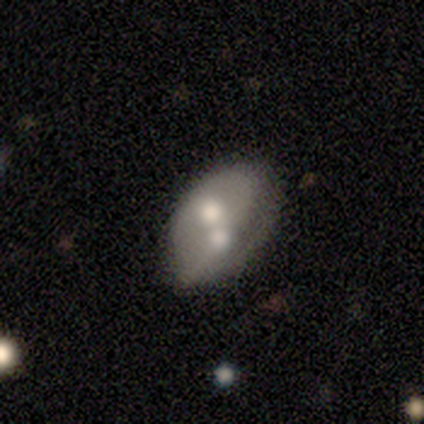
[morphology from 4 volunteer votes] smooth_or_featured: smooth (p=0.50) [tied with: featured or disk p=0.50]
how_rounded: in between (p=1.00)
merging: merger (p=0.50) [alt: none p=0.25]